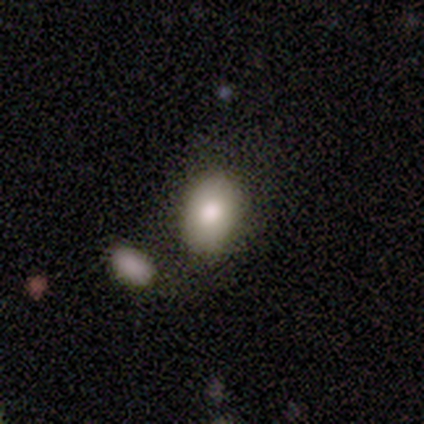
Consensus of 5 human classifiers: This appears to be a smooth galaxy with no disk features (80%) that is in between round and cigar-shaped (100%). Merging: none (75%).